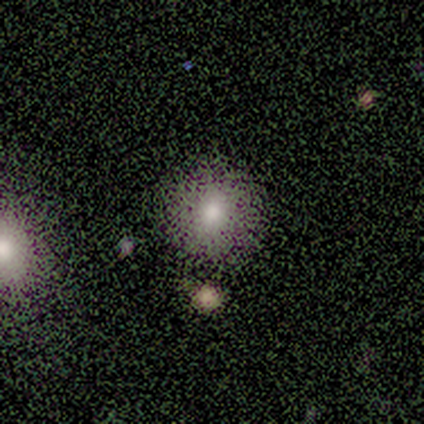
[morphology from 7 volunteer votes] Volunteers were most divided on "how rounded": round: 86%, in between: 14%, cigar-shaped: 0%. More confident: smooth or featured — smooth (100%); merging — none (100%).